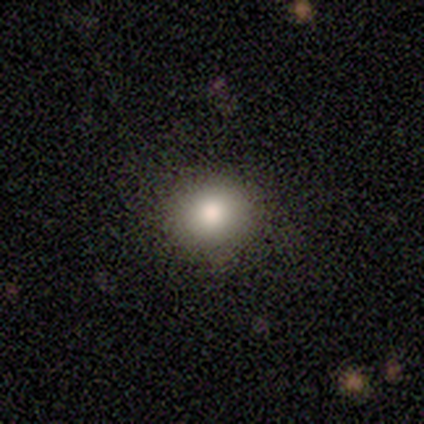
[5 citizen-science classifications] This appears to be a smooth galaxy with no disk features (100%) that is round (80%). Merging: none (100%).